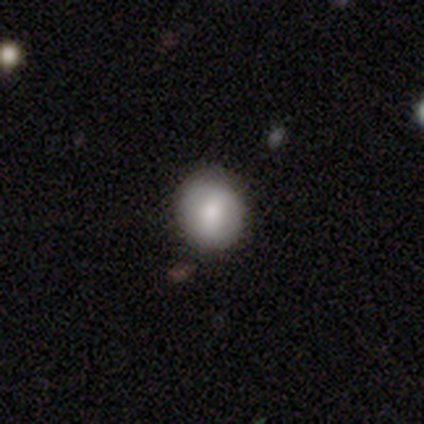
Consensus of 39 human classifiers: A smooth galaxy with no disk features (74%) that is round (79%).

Vote fractions:
- Smooth or featured? smooth: 74% / featured or disk: 21% / star or artifact: 5%
- How rounded? round: 79% / in between: 21% / cigar-shaped: 0%
- Merging? none: 78% / minor disturbance: 16% / major disturbance: 5% / merger: 0%